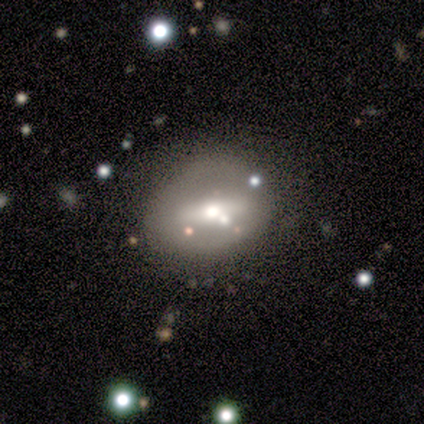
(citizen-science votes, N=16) Morphology: type=featured or disk (62%); edge-on=no (100%); bar=strong (50%); spiral arms=no (100%); bulge=moderate (80%); merging=none (80%).